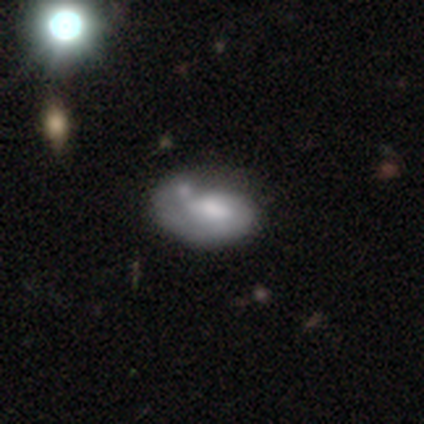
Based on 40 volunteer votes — This is possibly a smooth galaxy (50%). How rounded: clearly in between (85%). Merging: marginally minor disturbance (45%).